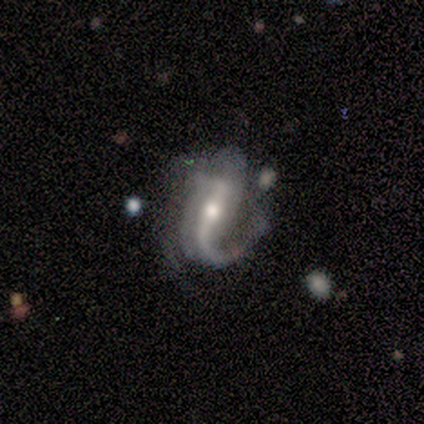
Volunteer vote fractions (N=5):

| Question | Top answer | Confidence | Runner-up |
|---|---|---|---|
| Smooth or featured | featured or disk | 80% | smooth (20%) |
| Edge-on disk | no | 100% | — |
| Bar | weak | 50% | strong (25%) |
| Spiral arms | yes | 75% | no (25%) |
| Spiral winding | tight | 33% | tied: medium (33%), loose (33%) |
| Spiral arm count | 2 | 67% | 1 (33%) |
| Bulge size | moderate | 50% | tied: small (50%) |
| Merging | none | 80% | minor disturbance (20%) |